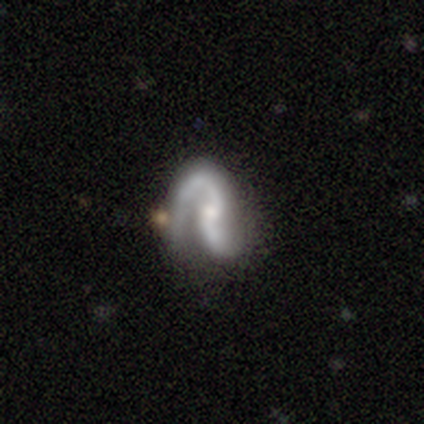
This is clearly a featured or disk galaxy (100%). It is clearly not viewed edge-on (100%). Bar: clearly no (80%). Spiral arm pattern: clearly yes (100%). Spiral arm count: clearly 2 (100%). Spiral winding: likely medium (60%). Central bulge: clearly small (80%). Merging: likely none (60%).